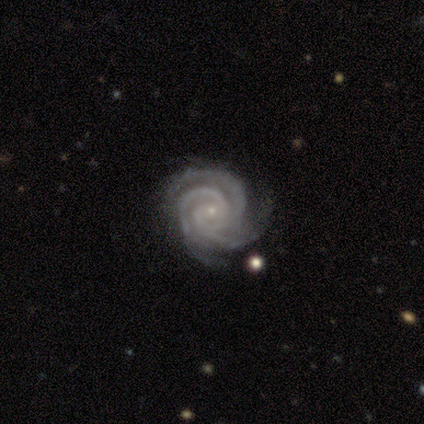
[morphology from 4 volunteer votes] Smooth or featured: featured or disk — 75% (smooth — 25%)
Edge-on disk: no — 100%
Bar: no — 67% (weak — 33%)
Spiral arms: yes — 100%
Spiral winding: tight — 100%
Spiral arm count: 3 — 100%
Bulge size: small — 100%
Merging: none — 50% (minor disturbance — 25%)